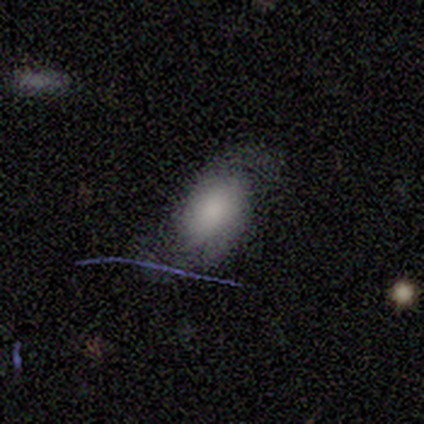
smooth-or-featured: featured or disk: 60% | smooth: 40% | star or artifact: 0%
  disk-edge-on: no: 67% | yes: 33%
    bar: no: 100% | strong: 0% | weak: 0%
    has-spiral-arms: yes: 100% | no: 0%
      spiral-winding: tight: 50% (tied) | medium: 50% (tied) | loose: 0%
      spiral-arm-count: 2: 100% | 1: 0% | 3: 0% | 4: 0% | more than 4: 0% | can't tell: 0%
    bulge-size: large: 50% (tied) | small: 50% (tied) | dominant: 0% | moderate: 0% | none: 0%
  merging: none: 80% | major disturbance: 20% | minor disturbance: 0% | merger: 0%